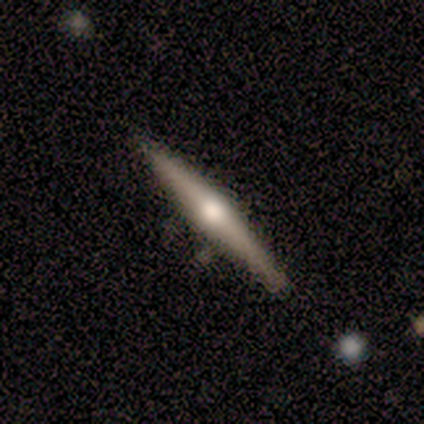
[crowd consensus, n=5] Smooth or featured?
  - smooth: 40% * (tied)
  - featured or disk: 40% * (tied)
  - star or artifact: 20%
How rounded?
  - cigar-shaped: 100% *
  - round: 0%
  - in between: 0%
Merging?
  - none: 75% *
  - minor disturbance: 25%
  - major disturbance: 0%
  - merger: 0%